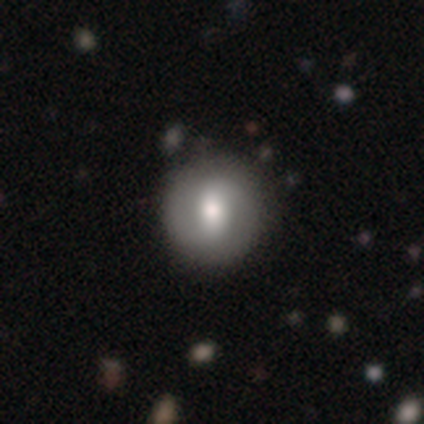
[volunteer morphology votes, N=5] A featured or disk galaxy (80%) with a strong bar (75%), 2 (75%) medium (50%) spiral arms (100%) and a large central bulge (50%). Merging: none (80%).